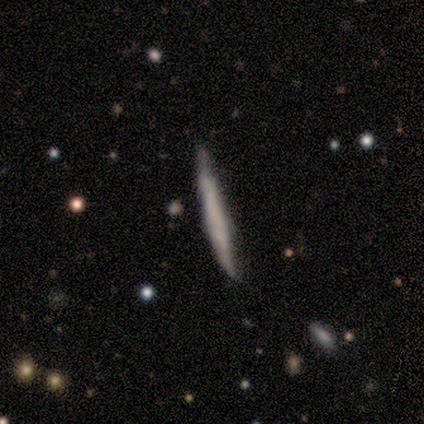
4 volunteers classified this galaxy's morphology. This appears to be a smooth galaxy with no disk features (75%) that is cigar-shaped (100%). Merging: none (67%).